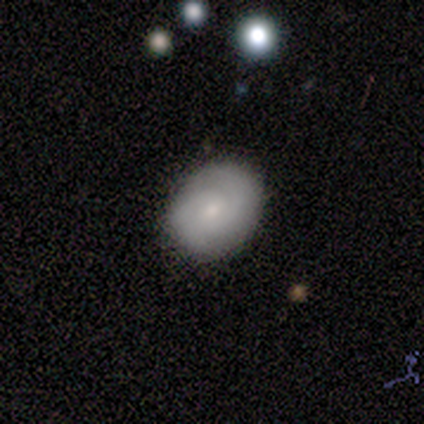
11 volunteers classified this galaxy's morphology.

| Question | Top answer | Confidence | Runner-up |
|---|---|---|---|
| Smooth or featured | smooth | 45% | tied: featured or disk (45%) |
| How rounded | round | 60% | in between (40%) |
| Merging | none | 80% | minor disturbance (20%) |